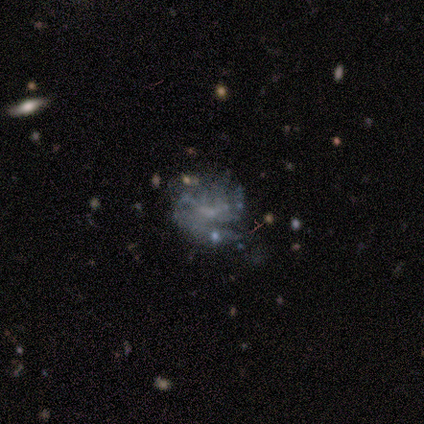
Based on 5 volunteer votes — A featured or disk galaxy (60%) with no bar (67%), 1 (50%, tied with can't tell) medium (50%, tied with loose) spiral arms (67%) and a small central bulge (67%). Merging: none (80%).